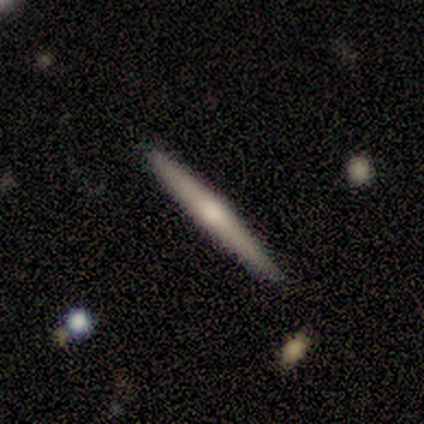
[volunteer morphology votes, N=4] smooth 75%, featured or disk 25%, star or artifact 0%. Down the decision tree: how rounded — cigar-shaped (100%); merging — none (100%).